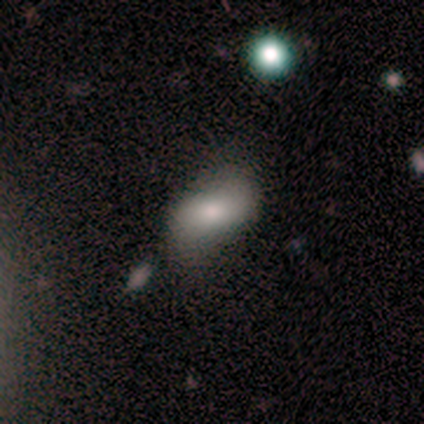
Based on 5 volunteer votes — Smooth or featured? 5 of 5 (100%) said smooth. How rounded? 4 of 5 (80%) said in between. Merging? 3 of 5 (60%) said none.